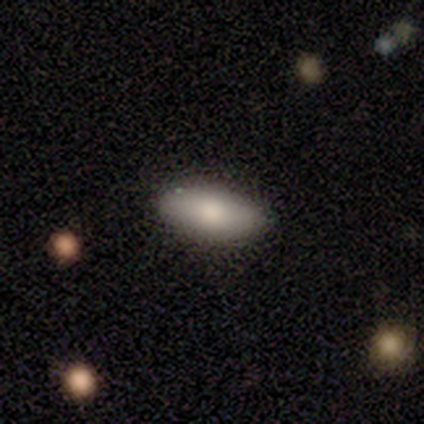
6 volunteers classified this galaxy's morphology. A smooth galaxy with no disk features (83%) that is in between round and cigar-shaped (60%). Merging: none (100%).